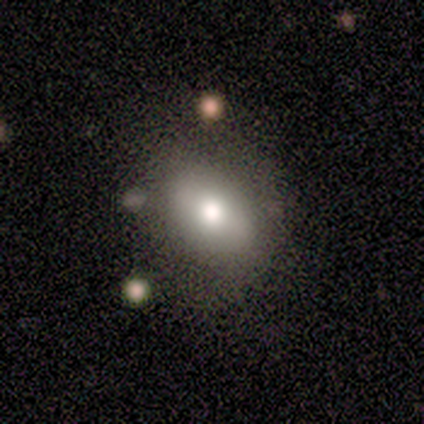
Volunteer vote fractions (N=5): This appears to be a smooth galaxy with no disk features (80%) that is in between round and cigar-shaped (100%). Merging: none (100%).